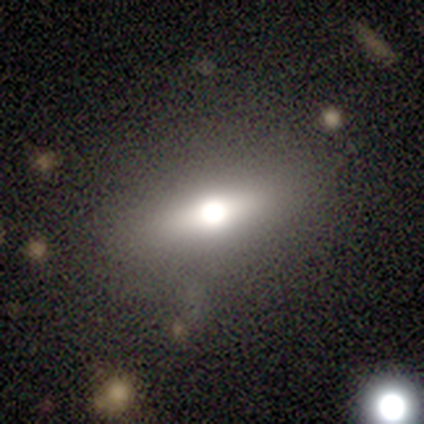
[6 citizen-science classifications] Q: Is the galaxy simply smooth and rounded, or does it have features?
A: smooth — 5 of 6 (83%).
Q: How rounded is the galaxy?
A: in between — 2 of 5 (40%, tied with cigar-shaped).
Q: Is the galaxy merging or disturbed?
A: none — 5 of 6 (83%).